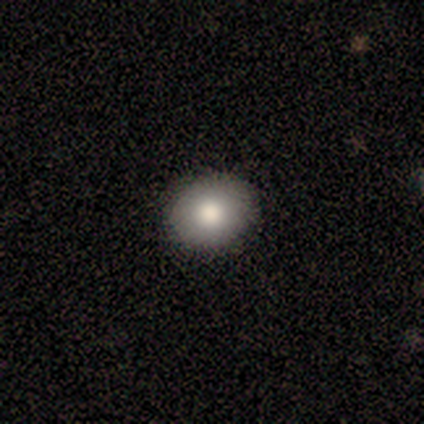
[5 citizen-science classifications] smooth-or-featured: smooth: 100% | featured or disk: 0% | star or artifact: 0%
  how-rounded: in between: 80% | round: 20% | cigar-shaped: 0%
  merging: none: 100% | minor disturbance: 0% | major disturbance: 0% | merger: 0%